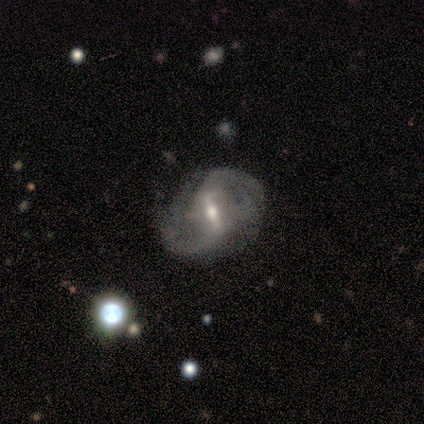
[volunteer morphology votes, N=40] A featured or disk galaxy (95%) with a strong bar (71%), 2 (71%) medium (55%) spiral arms (100%) and a moderate central bulge (61%).

Vote fractions:
- Smooth or featured? featured or disk: 95% / smooth: 2% / star or artifact: 2%
- Edge-on disk? no: 100% / yes: 0%
- Bar? strong: 71% / weak: 29% / no: 0%
- Spiral arms? yes: 100% / no: 0%
- Spiral winding? medium: 55% / loose: 34% / tight: 11%
- Spiral arm count? 2: 71% / can't tell: 13% / 3: 11% / 4: 5% / 1: 0% / more than 4: 0%
- Bulge size? moderate: 61% / small: 37% / large: 3% / dominant: 0% / none: 0%
- Merging? none: 49% / minor disturbance: 41% / major disturbance: 8% / merger: 3%